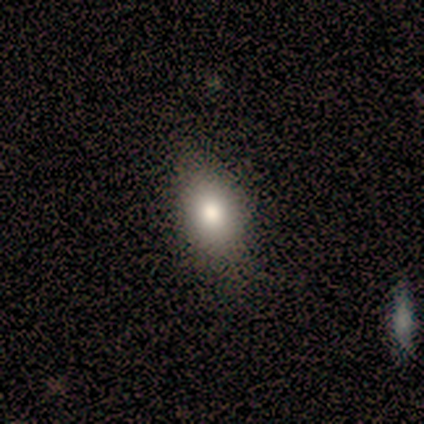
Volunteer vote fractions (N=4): Consensus on every question: smooth or featured — smooth (100%); how rounded — in between (100%); merging — none (100%).